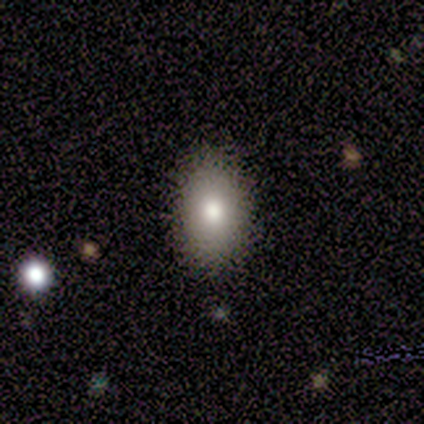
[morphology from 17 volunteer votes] Smooth or featured? 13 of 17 (76%) said smooth. How rounded? 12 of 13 (92%) said in between. Merging? 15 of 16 (94%) said none.